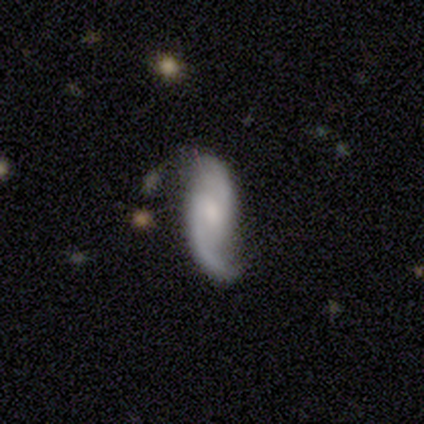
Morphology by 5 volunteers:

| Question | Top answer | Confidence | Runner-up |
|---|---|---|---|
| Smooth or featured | featured or disk | 100% | — |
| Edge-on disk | no | 100% | — |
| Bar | weak | 60% | no (40%) |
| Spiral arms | yes | 100% | — |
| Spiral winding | medium | 40% | tied: loose (40%) |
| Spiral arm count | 2 | 100% | — |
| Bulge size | moderate | 40% | tied: small (40%) |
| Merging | none | 100% | — |